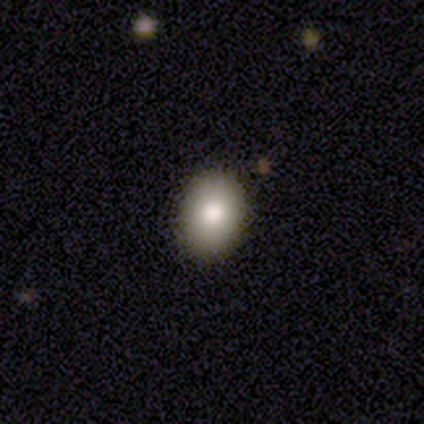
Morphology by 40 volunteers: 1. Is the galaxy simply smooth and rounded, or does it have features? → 85% smooth, 10% featured or disk, 5% star or artifact.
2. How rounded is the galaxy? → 65% in between, 32% round, 3% cigar-shaped.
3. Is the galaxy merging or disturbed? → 89% none, 5% minor disturbance, 3% major disturbance, 3% merger.